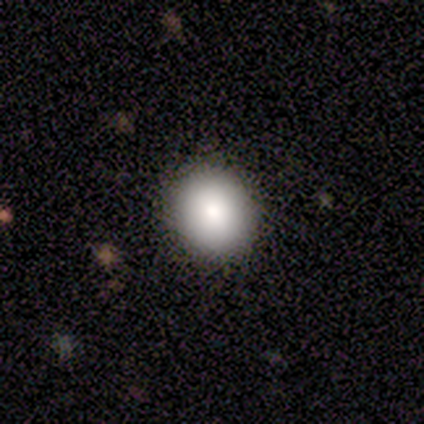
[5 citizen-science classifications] This is clearly a smooth galaxy (100%). How rounded: likely round (60%). Merging: clearly none (80%).